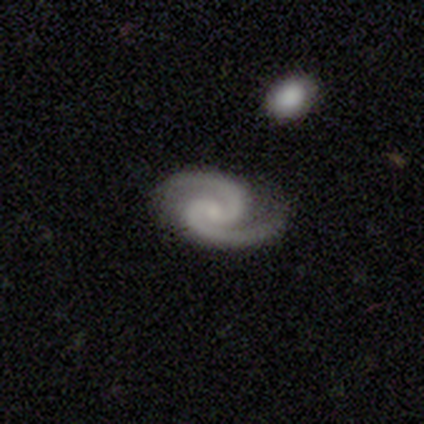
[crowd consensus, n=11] A featured or disk galaxy (100%) with no bar (73%), 2 (100%) medium (55%) spiral arms (100%) and a small central bulge (64%).

Vote fractions:
- Smooth or featured? featured or disk: 100% / smooth: 0% / star or artifact: 0%
- Edge-on disk? no: 100% / yes: 0%
- Bar? no: 73% / weak: 18% / strong: 9%
- Spiral arms? yes: 100% / no: 0%
- Spiral winding? medium: 55% / tight: 45% / loose: 0%
- Spiral arm count? 2: 100% / 1: 0% / 3: 0% / 4: 0% / more than 4: 0% / can't tell: 0%
- Bulge size? small: 64% / moderate: 18% / none: 18% / dominant: 0% / large: 0%
- Merging? none: 91% / minor disturbance: 9% / major disturbance: 0% / merger: 0%